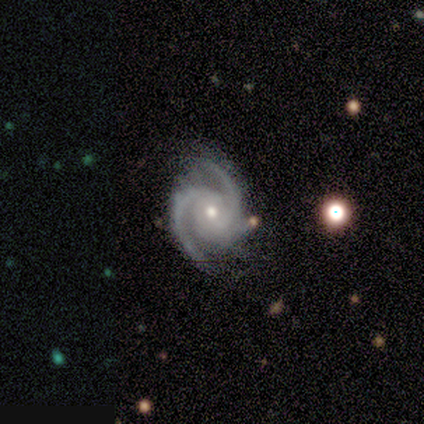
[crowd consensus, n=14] Q: Smooth or featured?
A: featured or disk (100%)
Q: Edge-on disk?
A: no (100%)
Q: Bar?
A: no (57%); runner-up: weak (36%)
Q: Spiral arms?
A: yes (100%)
Q: Spiral winding?
A: tight (57%); runner-up: medium (43%)
Q: Spiral arm count?
A: 2 (64%); runner-up: 3 (36%)
Q: Bulge size?
A: small (50%); runner-up: moderate (43%)
Q: Merging?
A: none (64%); runner-up: minor disturbance (36%)